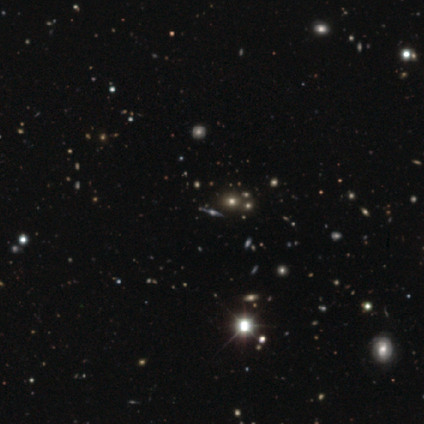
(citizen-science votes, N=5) smooth_or_featured: featured or disk (p=1.00)
disk_edge_on: yes (p=0.80) [alt: no p=0.20]
edge_on_bulge: rounded (p=0.75) [alt: boxy p=0.25]
merging: none (p=0.60) [alt: minor disturbance p=0.20]